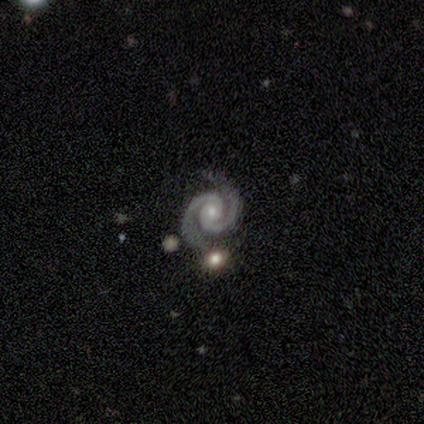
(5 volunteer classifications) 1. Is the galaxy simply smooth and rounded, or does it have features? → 100% featured or disk, 0% smooth, 0% star or artifact.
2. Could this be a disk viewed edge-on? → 100% no, 0% yes.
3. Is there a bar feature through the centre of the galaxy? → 100% no, 0% strong, 0% weak.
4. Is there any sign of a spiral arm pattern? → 100% yes, 0% no.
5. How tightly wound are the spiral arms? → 80% tight, 20% medium, 0% loose.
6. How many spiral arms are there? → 100% 2, 0% 1, 0% 3, 0% 4, 0% more than 4, 0% can't tell.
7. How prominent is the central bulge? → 100% small, 0% dominant, 0% large, 0% moderate, 0% none.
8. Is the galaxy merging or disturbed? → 80% none, 20% major disturbance, 0% minor disturbance, 0% merger.